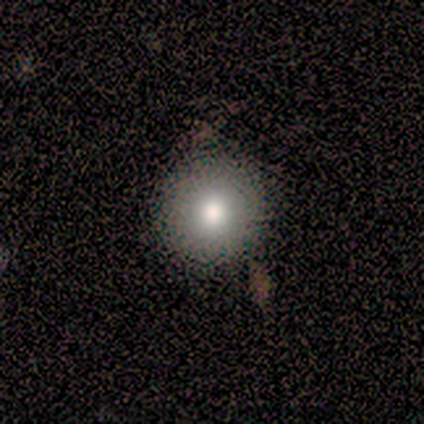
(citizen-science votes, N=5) smooth 40% (tied), featured or disk 40% (tied), star or artifact 20%. Down the decision tree: how rounded — round (100%); merging — none (100%).